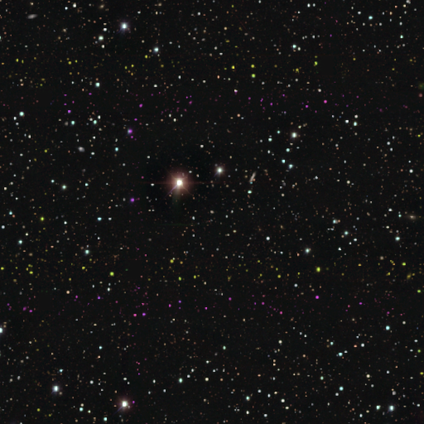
Smooth or featured? star or artifact (100%)